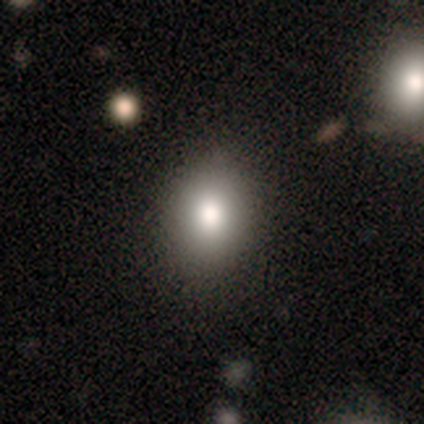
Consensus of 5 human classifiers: smooth-or-featured: smooth: 80% | featured or disk: 20% | star or artifact: 0%
  how-rounded: in between: 75% | round: 25% | cigar-shaped: 0%
  merging: none: 80% | minor disturbance: 20% | major disturbance: 0% | merger: 0%